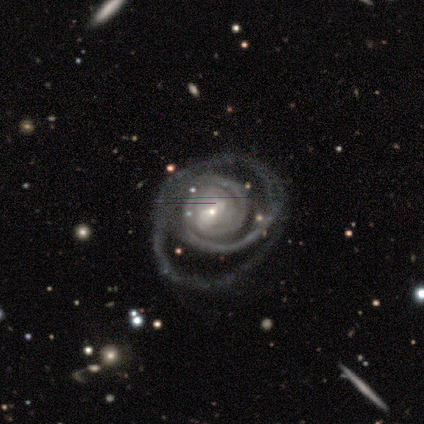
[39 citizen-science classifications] smooth_or_featured: featured or disk (p=0.92) [alt: smooth p=0.05]
disk_edge_on: no (p=1.00)
bar: weak (p=0.42) [alt: no p=0.31]
has_spiral_arms: yes (p=1.00)
spiral_winding: tight (p=0.53) [alt: medium p=0.28]
spiral_arm_count: 2 (p=0.33) [tied with: can't tell p=0.33]
bulge_size: small (p=0.72) [alt: moderate p=0.19]
merging: none (p=0.45) [alt: major disturbance p=0.32]